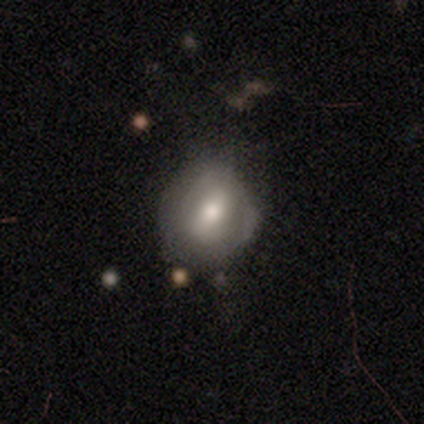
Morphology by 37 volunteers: A smooth galaxy with no disk features (46%) that is round (76%). Merging: none (59%).